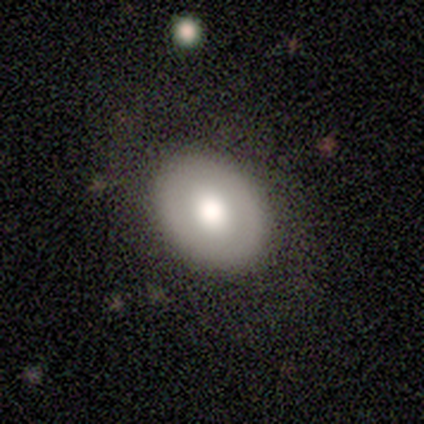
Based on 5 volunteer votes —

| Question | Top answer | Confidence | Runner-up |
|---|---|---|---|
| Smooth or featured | smooth | 60% | featured or disk (40%) |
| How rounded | in between | 67% | round (33%) |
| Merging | none | 80% | major disturbance (20%) |